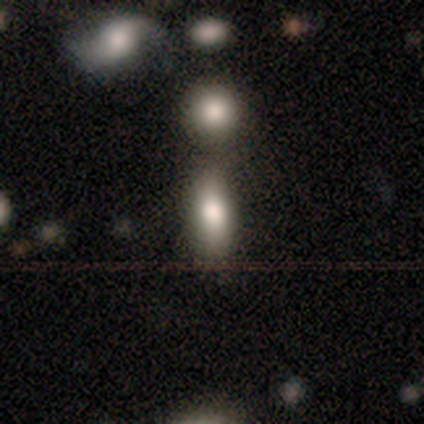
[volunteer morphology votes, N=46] A smooth galaxy with no disk features (61%) that is in between round and cigar-shaped (64%).

Vote fractions:
- Smooth or featured? smooth: 61% / featured or disk: 24% / star or artifact: 15%
- How rounded? in between: 64% / cigar-shaped: 29% / round: 7%
- Merging? none: 46% / merger: 28% / minor disturbance: 21% / major disturbance: 5%